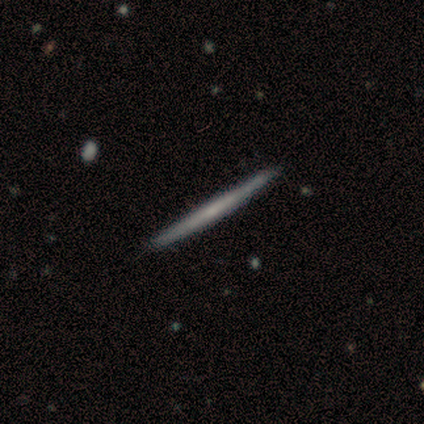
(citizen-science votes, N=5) Smooth or featured? 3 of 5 (60%) said featured or disk. Edge-on disk? 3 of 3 (100%) said yes. Edge-on bulge? 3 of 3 (100%) said none. Merging? 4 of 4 (100%) said none.